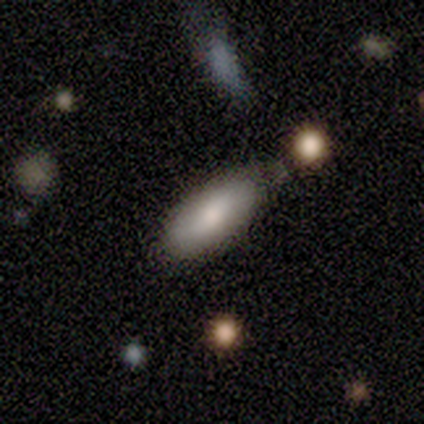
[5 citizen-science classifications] Morphology: type=smooth (80%); roundness=in between (100%); merging=minor disturbance (60%).